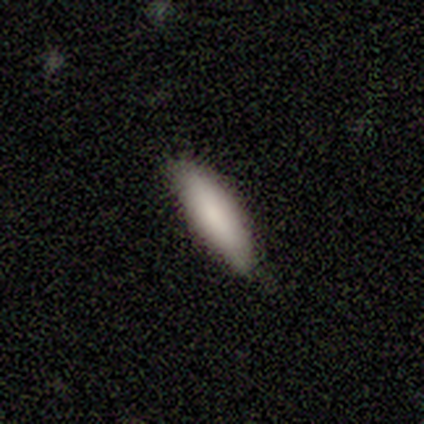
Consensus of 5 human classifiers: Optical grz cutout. It shows a smooth galaxy with no disk features (100%) that is cigar-shaped (60%). Merging: none (80%).